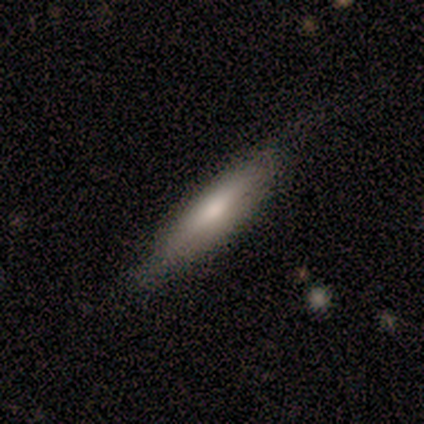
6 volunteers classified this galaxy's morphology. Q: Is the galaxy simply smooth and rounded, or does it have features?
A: smooth — 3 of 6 (50%, tied with featured or disk).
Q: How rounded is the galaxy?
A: cigar-shaped — 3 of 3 (100%).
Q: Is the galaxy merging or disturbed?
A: none — 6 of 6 (100%).